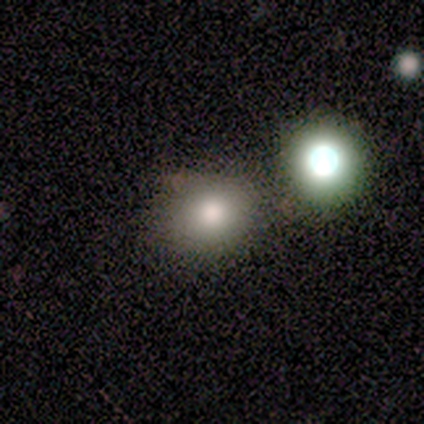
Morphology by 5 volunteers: smooth_or_featured: smooth (p=0.80) [alt: featured or disk p=0.20]
how_rounded: round (p=0.50) [tied with: in between p=0.50]
merging: minor disturbance (p=0.60) [alt: none p=0.40]